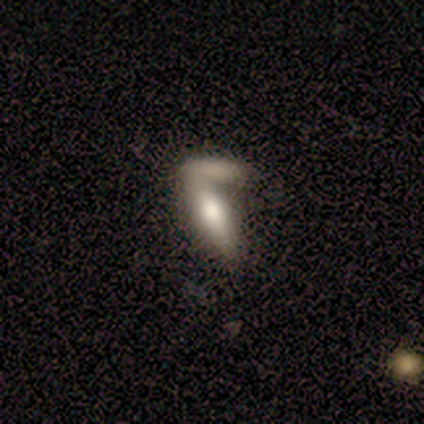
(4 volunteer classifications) This appears to be a smooth galaxy with no disk features (50%, tied with featured or disk) that is in between round and cigar-shaped (100%). Merging: merger (75%).